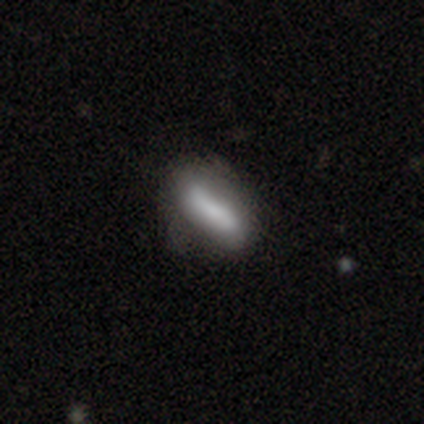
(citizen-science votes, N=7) This is likely a smooth galaxy (71%). How rounded: likely cigar-shaped (60%). Merging: possibly minor disturbance (57%).